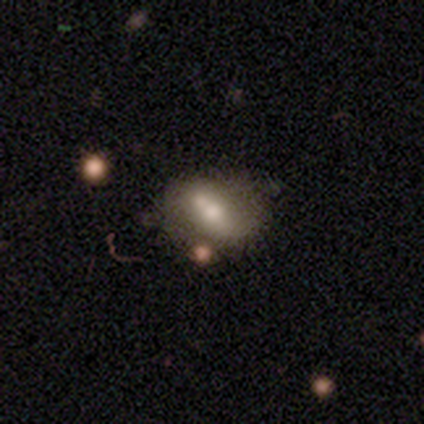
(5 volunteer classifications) This is likely a featured or disk galaxy (60%). It is clearly not viewed edge-on (100%). Bar: likely weak (67%). Spiral arm pattern: likely no (67%). Central bulge: clearly moderate (100%). Merging: possibly none (50%).